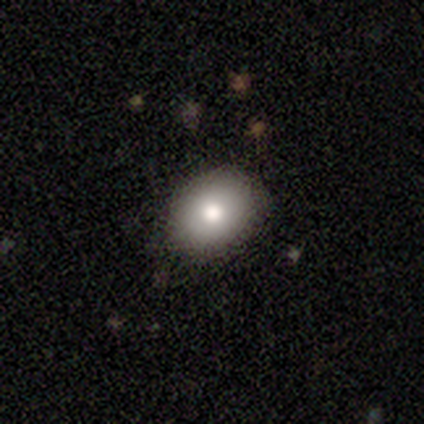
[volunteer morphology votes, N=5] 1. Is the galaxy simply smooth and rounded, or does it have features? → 60% smooth, 40% featured or disk, 0% star or artifact.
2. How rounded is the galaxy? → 100% in between, 0% round, 0% cigar-shaped.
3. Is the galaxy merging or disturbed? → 80% none, 20% minor disturbance, 0% major disturbance, 0% merger.